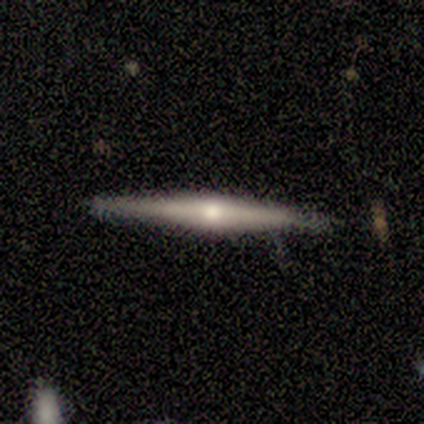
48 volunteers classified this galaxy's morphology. smooth-or-featured: featured or disk: 81% | smooth: 12% | star or artifact: 6%
  disk-edge-on: yes: 100% | no: 0%
    edge-on-bulge: rounded: 87% | none: 8% | boxy: 5%
  merging: none: 80% | minor disturbance: 18% | merger: 2% | major disturbance: 0%